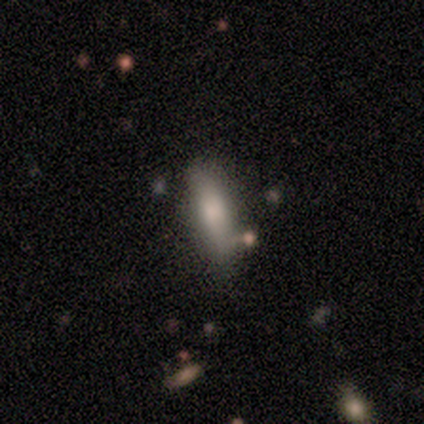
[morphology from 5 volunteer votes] Smooth or featured? 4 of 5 (80%) said smooth. How rounded? 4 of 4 (100%) said in between. Merging? 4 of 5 (80%) said none.